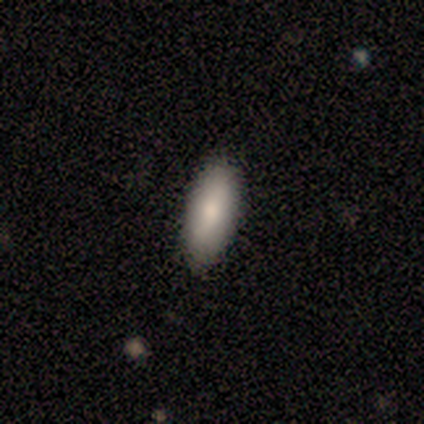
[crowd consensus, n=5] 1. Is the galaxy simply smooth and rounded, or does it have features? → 100% smooth, 0% featured or disk, 0% star or artifact.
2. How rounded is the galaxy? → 80% in between, 20% cigar-shaped, 0% round.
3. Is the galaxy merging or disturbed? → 100% none, 0% minor disturbance, 0% major disturbance, 0% merger.